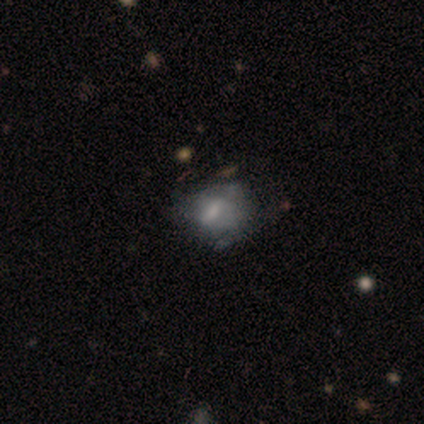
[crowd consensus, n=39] Smooth or featured? smooth (51%)
How rounded? in between (70%)
Merging? none (42%)